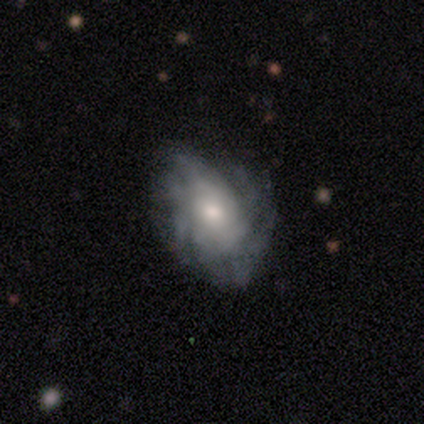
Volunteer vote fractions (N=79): Q: Smooth or featured?
A: featured or disk (78%); runner-up: smooth (18%)
Q: Edge-on disk?
A: no (100%)
Q: Bar?
A: no (84%); runner-up: weak (15%)
Q: Spiral arms?
A: yes (84%); runner-up: no (16%)
Q: Spiral winding?
A: tight (44%); runner-up: medium (38%)
Q: Spiral arm count?
A: can't tell (62%); runner-up: more than 4 (25%)
Q: Bulge size?
A: moderate (65%); runner-up: small (16%)
Q: Merging?
A: none (34%); runner-up: minor disturbance (20%)